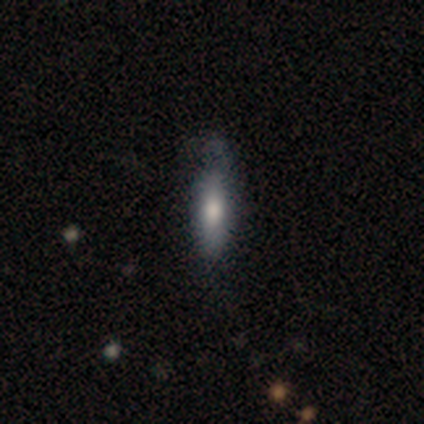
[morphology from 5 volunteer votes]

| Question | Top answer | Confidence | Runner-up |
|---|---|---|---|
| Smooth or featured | smooth | 40% | tied: featured or disk (40%) |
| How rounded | cigar-shaped | 100% | — |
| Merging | none | 50% | minor disturbance (25%) |